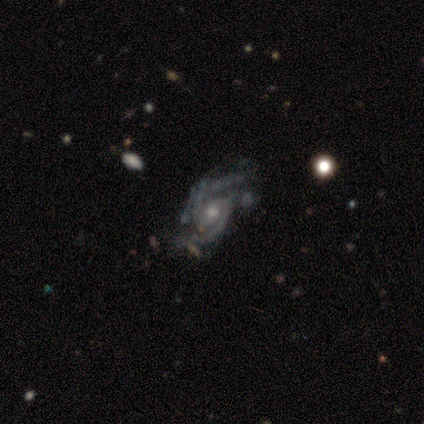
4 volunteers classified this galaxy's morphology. smooth_or_featured: featured or disk (p=0.75) [alt: star or artifact p=0.25]
disk_edge_on: no (p=1.00)
bar: no (p=0.67) [alt: strong p=0.33]
has_spiral_arms: yes (p=1.00)
spiral_winding: medium (p=0.67) [alt: tight p=0.33]
spiral_arm_count: 2 (p=1.00)
bulge_size: moderate (p=0.67) [alt: small p=0.33]
merging: none (p=0.33) [tied with: minor disturbance p=0.33, merger p=0.33]